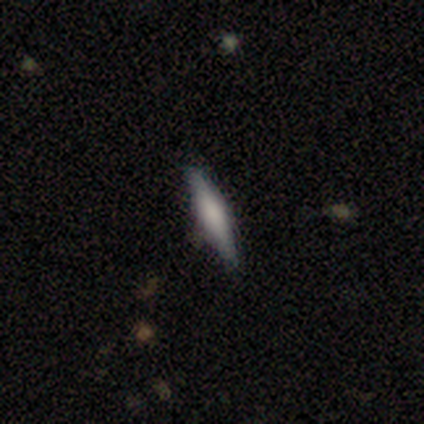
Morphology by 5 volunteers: This appears to be a featured or disk galaxy (80%) viewed edge-on (100%) with a rounded central bulge (75%). Merging: none (100%).